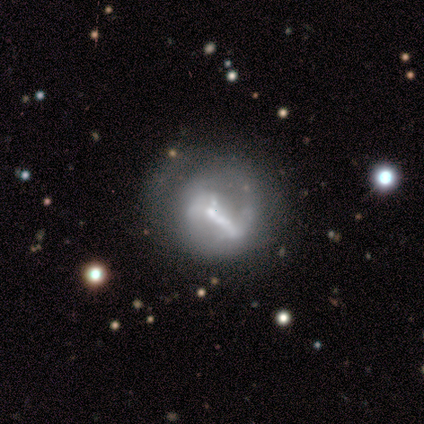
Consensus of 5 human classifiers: A featured or disk galaxy (80%) with a strong bar (75%), 1 (33%, tied with 2 and can't tell) medium (67%) spiral arms (75%) and a small central bulge (75%). Merging: none (60%).